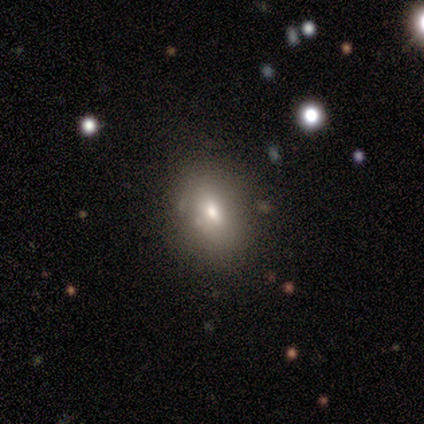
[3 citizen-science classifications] smooth_or_featured: smooth (p=0.67) [alt: featured or disk p=0.33]
how_rounded: in between (p=1.00)
merging: none (p=0.33) [tied with: minor disturbance p=0.33, major disturbance p=0.33]